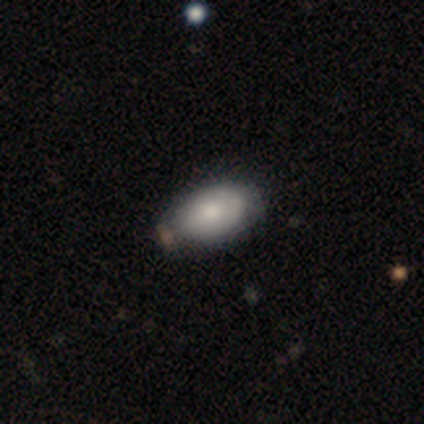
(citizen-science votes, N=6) smooth-or-featured: smooth: 83% | star or artifact: 17% | featured or disk: 0%
  how-rounded: in between: 100% | round: 0% | cigar-shaped: 0%
  merging: none: 100% | minor disturbance: 0% | major disturbance: 0% | merger: 0%